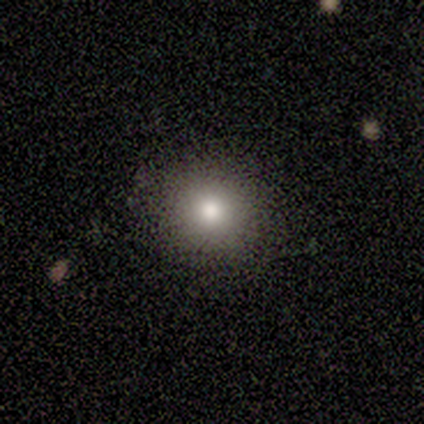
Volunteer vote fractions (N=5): Consensus on every question: smooth or featured — smooth (100%); how rounded — round (100%); merging — none (100%).